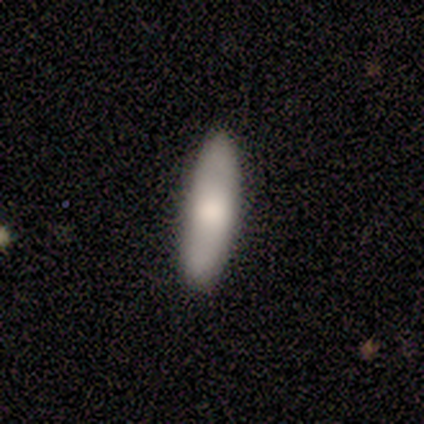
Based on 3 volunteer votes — This appears to be a smooth galaxy with no disk features (100%) that is in between round and cigar-shaped (67%). Merging: none (100%).